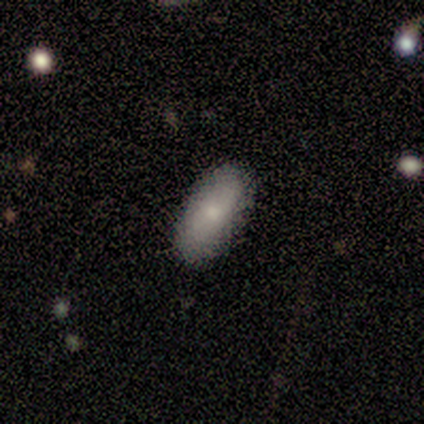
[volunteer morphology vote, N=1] type=smooth (100%); roundness=in between (100%); merging=none (100%).